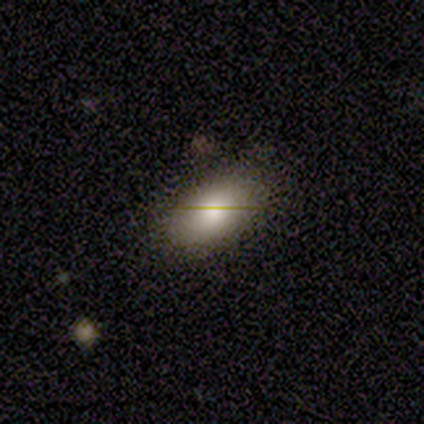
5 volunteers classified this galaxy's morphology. Smooth or featured? smooth (100%)
How rounded? in between (100%)
Merging? none (80%)